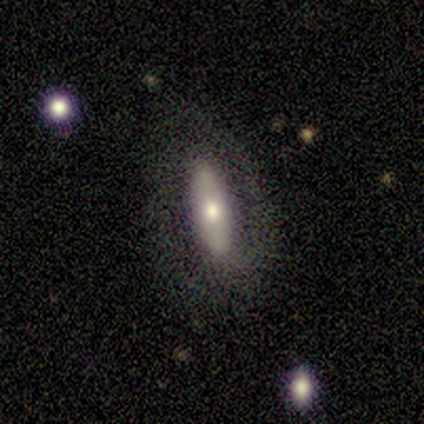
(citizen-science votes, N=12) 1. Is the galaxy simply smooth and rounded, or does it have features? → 58% smooth, 42% featured or disk, 0% star or artifact.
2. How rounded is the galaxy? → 86% in between, 14% cigar-shaped, 0% round.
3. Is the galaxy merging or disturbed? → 75% none, 8% minor disturbance, 8% major disturbance, 8% merger.